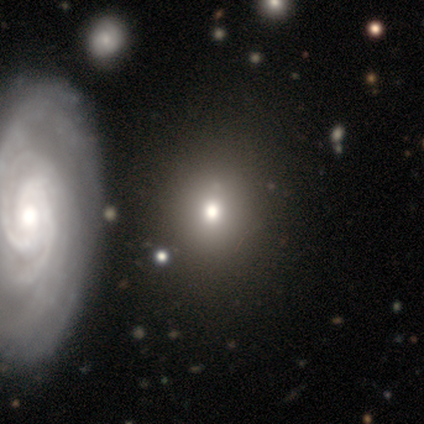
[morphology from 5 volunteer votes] Overall: smooth (40%, tied with star or artifact). How rounded: round (100%). Merging: none (100%).